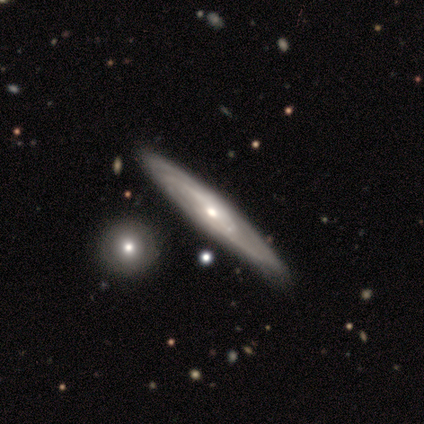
Smooth or featured?
  - featured or disk: 60% *
  - smooth: 40%
  - star or artifact: 0%
Edge-on disk?
  - yes: 67% *
  - no: 33%
Edge-on bulge?
  - rounded: 100% *
  - boxy: 0%
  - none: 0%
Merging?
  - none: 40% * (tied)
  - merger: 40% * (tied)
  - minor disturbance: 20%
  - major disturbance: 0%